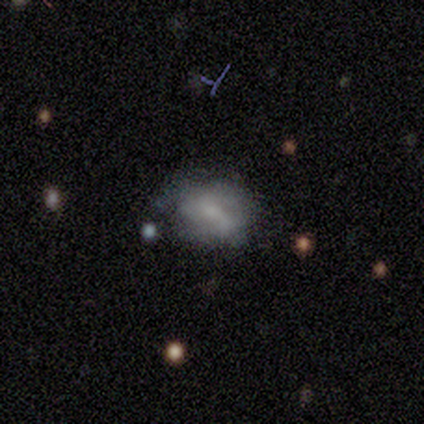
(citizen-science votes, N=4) smooth-or-featured: featured or disk: 75% | smooth: 25% | star or artifact: 0%
  disk-edge-on: no: 100% | yes: 0%
    bar: no: 67% | strong: 33% | weak: 0%
    has-spiral-arms: yes: 67% | no: 33%
      spiral-winding: tight: 50% (tied) | medium: 50% (tied) | loose: 0%
      spiral-arm-count: can't tell: 100% | 1: 0% | 2: 0% | 3: 0% | 4: 0% | more than 4: 0%
    bulge-size: small: 67% | moderate: 33% | dominant: 0% | large: 0% | none: 0%
  merging: none: 75% | minor disturbance: 25% | major disturbance: 0% | merger: 0%